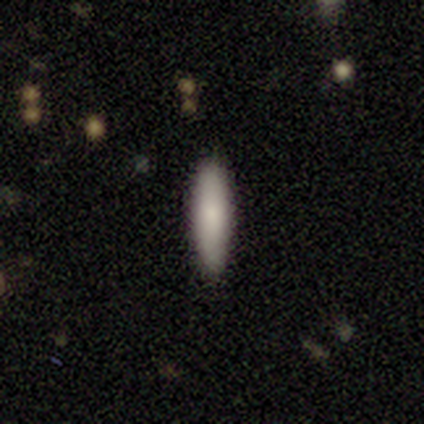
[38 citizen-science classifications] This appears to be a smooth galaxy with no disk features (79%) that is cigar-shaped (67%). Merging: none (78%).